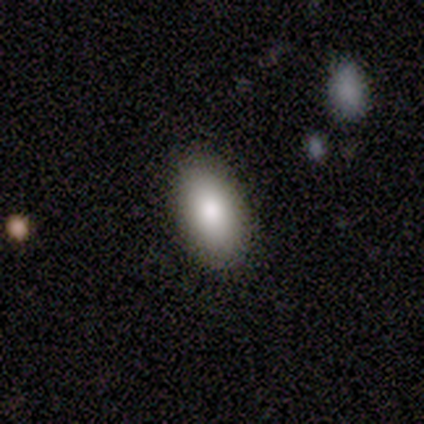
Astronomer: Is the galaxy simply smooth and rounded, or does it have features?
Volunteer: smooth — 86%.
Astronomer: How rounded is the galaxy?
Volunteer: in between — 100%.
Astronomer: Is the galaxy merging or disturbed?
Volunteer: none — 100%.